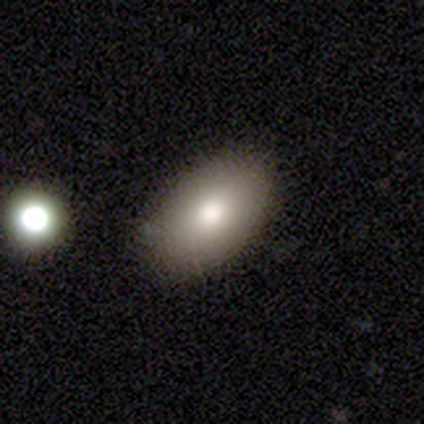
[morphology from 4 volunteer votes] This appears to be a smooth galaxy with no disk features (100%) that is in between round and cigar-shaped (100%). Merging: none (100%).